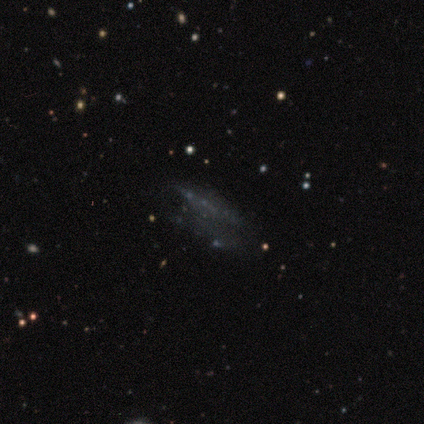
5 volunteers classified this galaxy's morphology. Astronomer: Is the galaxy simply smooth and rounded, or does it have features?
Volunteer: featured or disk — 80%.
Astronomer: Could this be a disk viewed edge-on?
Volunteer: no — 75%.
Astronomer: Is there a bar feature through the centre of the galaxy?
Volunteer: no — 100%.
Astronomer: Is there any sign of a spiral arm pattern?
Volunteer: no — 100%.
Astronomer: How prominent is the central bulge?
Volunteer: none — 100%.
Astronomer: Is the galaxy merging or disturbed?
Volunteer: none — 50%, tied with major disturbance at 50%.